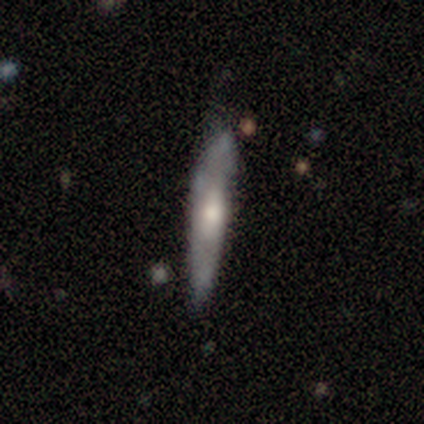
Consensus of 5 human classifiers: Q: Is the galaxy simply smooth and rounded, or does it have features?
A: featured or disk — 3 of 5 (60%).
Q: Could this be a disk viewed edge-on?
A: yes — 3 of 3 (100%).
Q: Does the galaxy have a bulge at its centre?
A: boxy — 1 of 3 (33%, tied with none and rounded).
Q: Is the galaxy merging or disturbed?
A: major disturbance — 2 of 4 (50%).